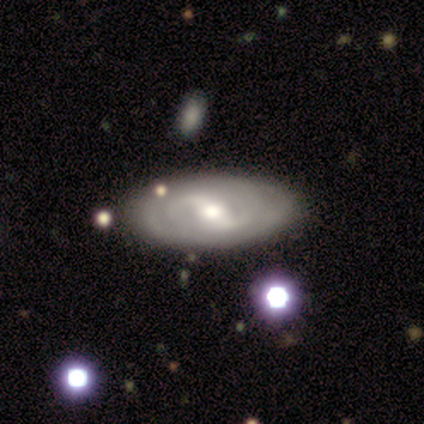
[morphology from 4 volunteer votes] Volunteers were most divided on "spiral winding" (2-way tie): tight: 50%, medium: 50%, loose: 0%; "bulge size" (3-way tie): moderate: 33%, small: 33%, none: 33%, dominant: 0%, large: 0%. More confident: edge-on disk — no (100%); spiral arm count — can't tell (100%); merging — none (100%); smooth or featured — featured or disk (75%); bar — weak (67%); spiral arms — yes (67%).